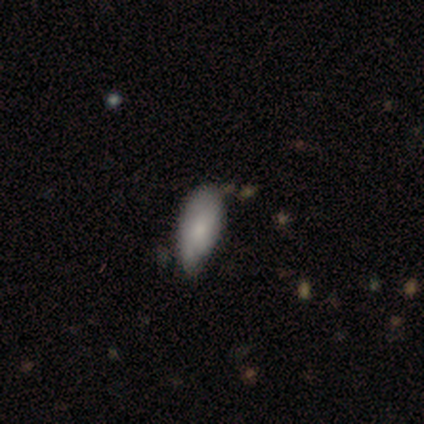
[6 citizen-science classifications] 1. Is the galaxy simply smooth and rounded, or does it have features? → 83% smooth, 17% star or artifact, 0% featured or disk.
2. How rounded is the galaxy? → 100% in between, 0% round, 0% cigar-shaped.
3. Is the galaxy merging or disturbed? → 80% minor disturbance, 20% merger, 0% none, 0% major disturbance.